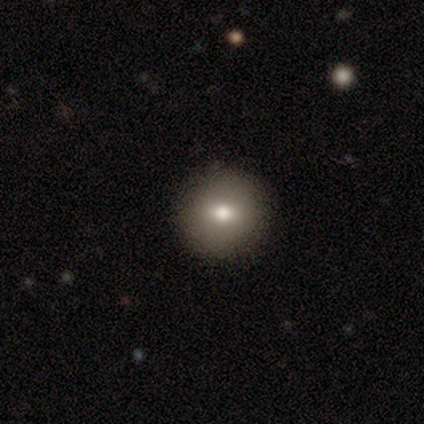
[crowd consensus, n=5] This is likely a featured or disk galaxy (60%). It is clearly not viewed edge-on (100%). Bar: likely no (67%). Spiral arm pattern: clearly no (100%). Central bulge: clearly moderate (100%). Merging: clearly none (100%).